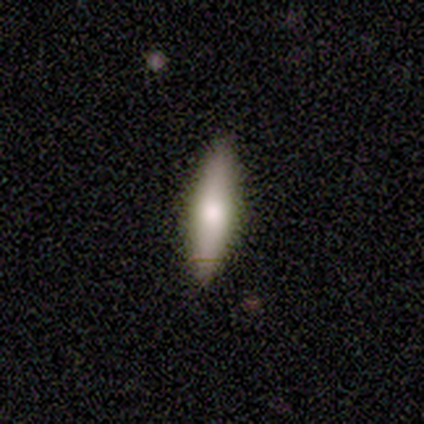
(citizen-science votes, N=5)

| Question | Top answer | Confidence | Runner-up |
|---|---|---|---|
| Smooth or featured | smooth | 60% | featured or disk (40%) |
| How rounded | cigar-shaped | 67% | in between (33%) |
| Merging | none | 80% | minor disturbance (20%) |